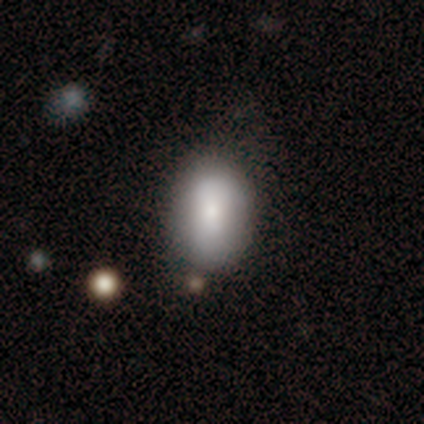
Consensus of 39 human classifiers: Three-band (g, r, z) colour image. It shows a smooth galaxy with no disk features (85%) that is in between round and cigar-shaped (82%). Merging: none (67%).